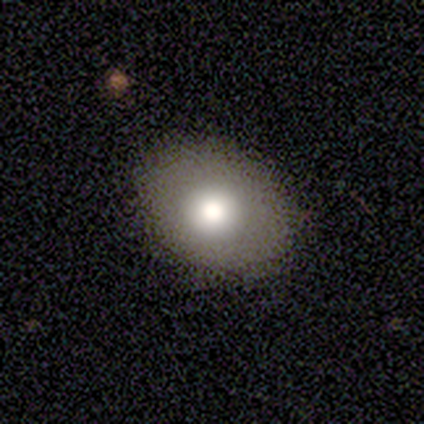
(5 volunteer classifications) Smooth or featured: smooth — 80% (star or artifact — 20%)
How rounded: round — 100%
Merging: none — 75% (major disturbance — 25%)